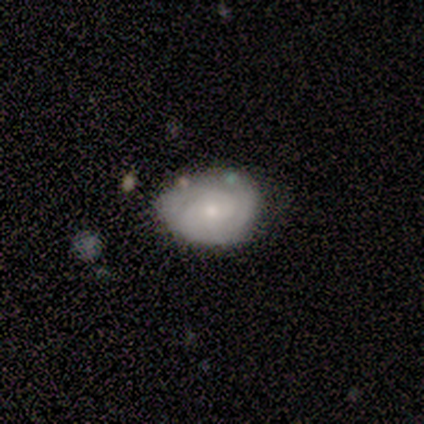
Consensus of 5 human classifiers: Smooth or featured?
  - featured or disk: 60% *
  - smooth: 40%
  - star or artifact: 0%
Edge-on disk?
  - no: 100% *
  - yes: 0%
Bar?
  - no: 100% *
  - strong: 0%
  - weak: 0%
Spiral arms?
  - yes: 100% *
  - no: 0%
Spiral winding?
  - tight: 100% *
  - medium: 0%
  - loose: 0%
Spiral arm count?
  - can't tell: 100% *
  - 1: 0%
  - 2: 0%
  - 3: 0%
  - 4: 0%
  - more than 4: 0%
Bulge size?
  - moderate: 67% *
  - small: 33%
  - dominant: 0%
  - large: 0%
  - none: 0%
Merging?
  - minor disturbance: 60% *
  - none: 40%
  - major disturbance: 0%
  - merger: 0%